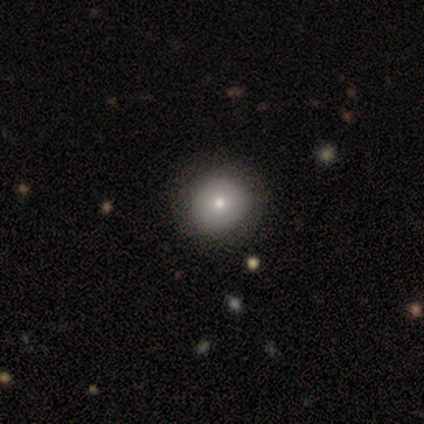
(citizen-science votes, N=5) A smooth galaxy with no disk features (80%) that is round (75%). Merging: none (80%).